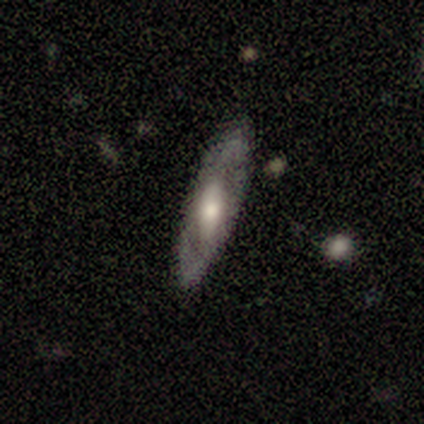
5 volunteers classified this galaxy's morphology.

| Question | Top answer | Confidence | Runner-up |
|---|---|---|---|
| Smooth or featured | featured or disk | 60% | smooth (40%) |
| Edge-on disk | no | 67% | yes (33%) |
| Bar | strong | 50% | tied: no (50%) |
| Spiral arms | no | 100% | — |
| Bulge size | moderate | 50% | tied: small (50%) |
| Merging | none | 100% | — |